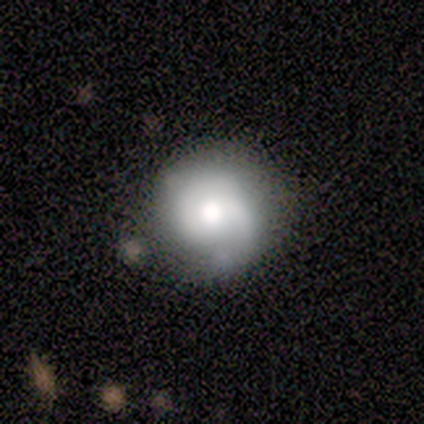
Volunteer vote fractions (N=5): Volunteers were most divided on "smooth or featured": smooth: 60%, featured or disk: 40%, star or artifact: 0%. More confident: how rounded — round (100%); merging — none (100%).